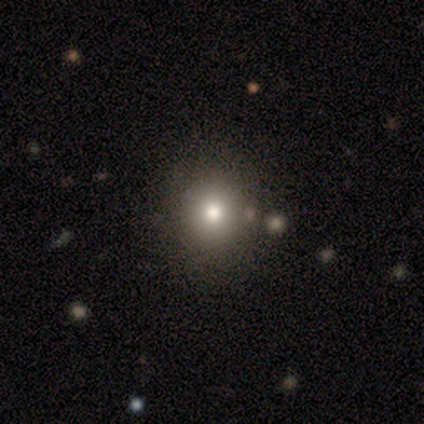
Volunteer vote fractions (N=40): Smooth or featured?
  - smooth: 85% *
  - featured or disk: 10%
  - star or artifact: 5%
How rounded?
  - round: 88% *
  - in between: 12%
  - cigar-shaped: 0%
Merging?
  - none: 71% *
  - merger: 8%
  - minor disturbance: 5%
  - major disturbance: 3%